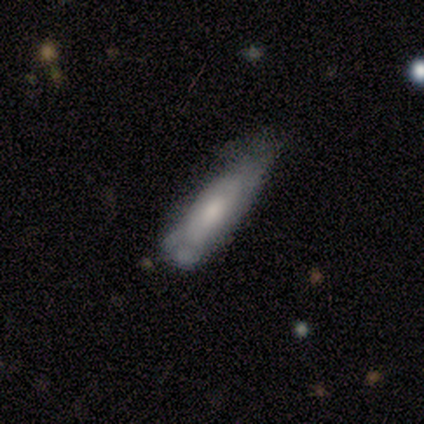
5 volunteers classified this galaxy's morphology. smooth_or_featured: smooth (p=0.40) [tied with: featured or disk p=0.40]
how_rounded: in between (p=0.50) [tied with: cigar-shaped p=0.50]
merging: minor disturbance (p=1.00)